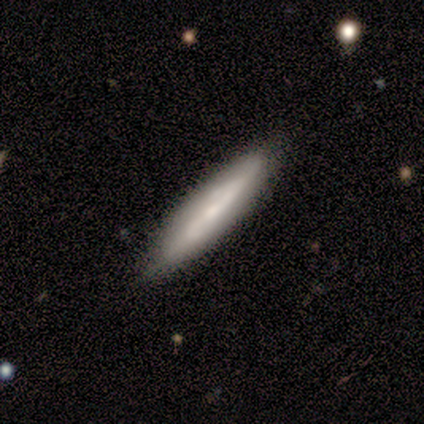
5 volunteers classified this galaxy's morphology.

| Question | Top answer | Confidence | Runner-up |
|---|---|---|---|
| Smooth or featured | featured or disk | 60% | smooth (40%) |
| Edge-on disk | no | 67% | yes (33%) |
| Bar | weak | 50% | tied: no (50%) |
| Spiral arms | yes | 100% | — |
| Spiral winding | tight | 100% | — |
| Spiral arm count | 2 | 50% | tied: can't tell (50%) |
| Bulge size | dominant | 50% | tied: none (50%) |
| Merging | none | 100% | — |